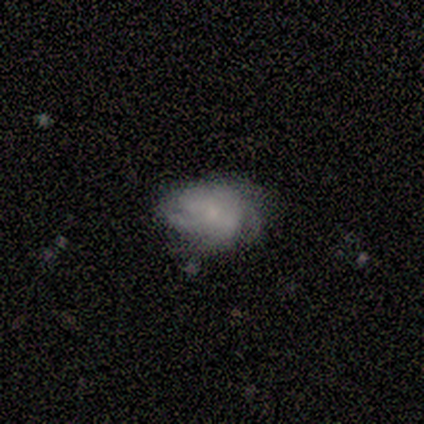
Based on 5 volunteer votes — featured or disk 60%, smooth 40%, star or artifact 0%. Down the decision tree: edge-on disk — no (100%); bar — no (67%); spiral arms — yes (100%); spiral arm count — can't tell (67%); spiral winding — tight (67%); bulge size — moderate (67%); merging — none (60%).